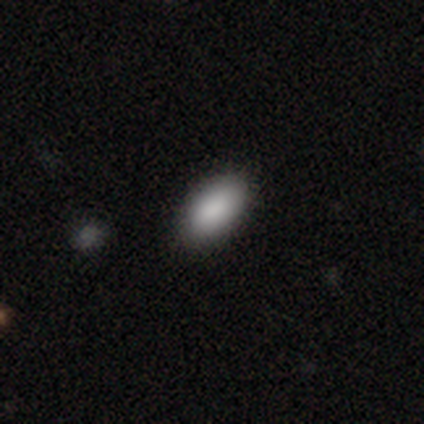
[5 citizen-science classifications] A smooth galaxy with no disk features (100%) that is in between round and cigar-shaped (100%). Merging: none (80%).